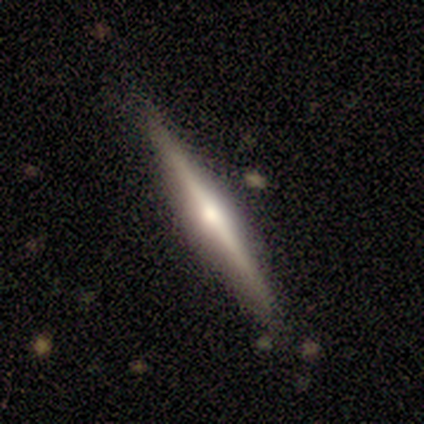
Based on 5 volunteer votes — Overall: featured or disk (100%). Edge-on disk: yes (100%). Edge-on bulge: rounded (100%). Merging: none (100%).